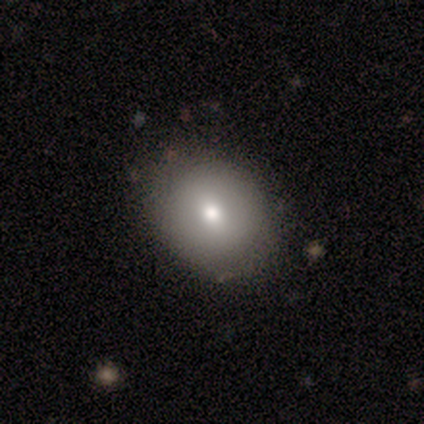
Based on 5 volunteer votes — smooth_or_featured: smooth (p=0.80) [alt: star or artifact p=0.20]
how_rounded: in between (p=0.75) [alt: round p=0.25]
merging: none (p=1.00)